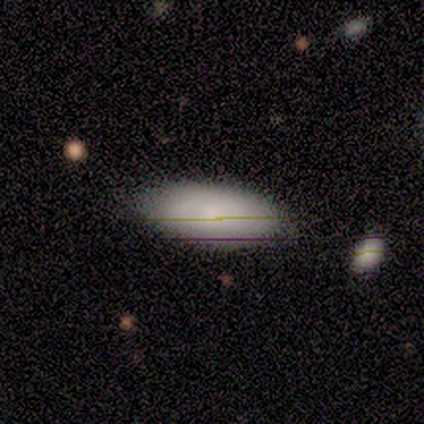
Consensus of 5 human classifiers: Smooth or featured? smooth (40%, tied with star or artifact)
How rounded? in between (100%)
Merging? none (33%, tied with minor disturbance and major disturbance)